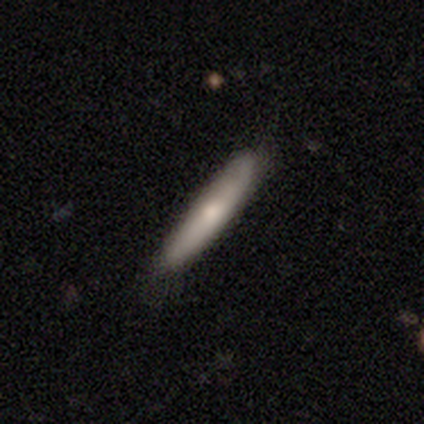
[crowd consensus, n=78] A smooth galaxy with no disk features (67%) that is cigar-shaped (87%).

Vote fractions:
- Smooth or featured? smooth: 67% / featured or disk: 29% / star or artifact: 4%
- How rounded? cigar-shaped: 87% / in between: 12% / round: 2%
- Merging? none: 40% / minor disturbance: 11% / merger: 4% / major disturbance: 1%